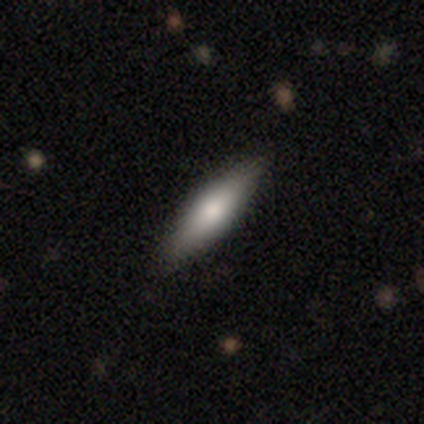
smooth_or_featured: smooth (p=0.75) [alt: featured or disk p=0.25]
how_rounded: cigar-shaped (p=1.00)
merging: none (p=1.00)